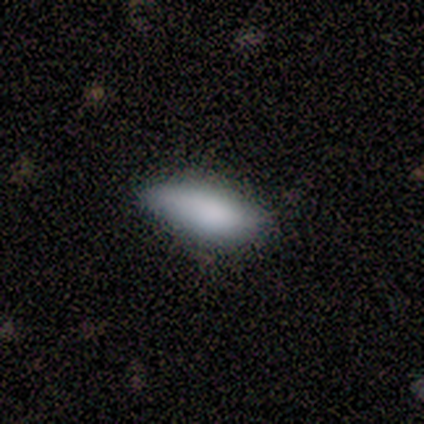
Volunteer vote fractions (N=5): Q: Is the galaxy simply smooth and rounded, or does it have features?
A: smooth — 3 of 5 (60%).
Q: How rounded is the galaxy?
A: in between — 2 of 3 (67%).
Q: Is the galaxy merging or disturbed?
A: none — 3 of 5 (60%).